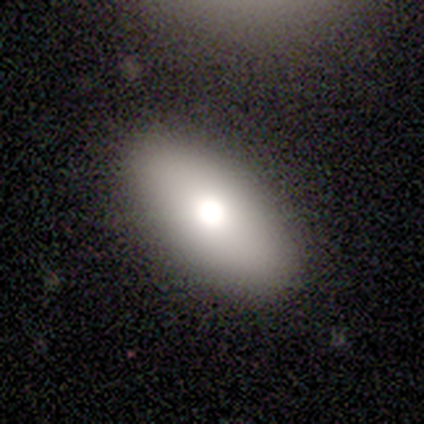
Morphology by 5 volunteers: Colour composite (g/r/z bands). It shows a smooth galaxy with no disk features (80%) that is in between round and cigar-shaped (75%). Merging: none (80%).